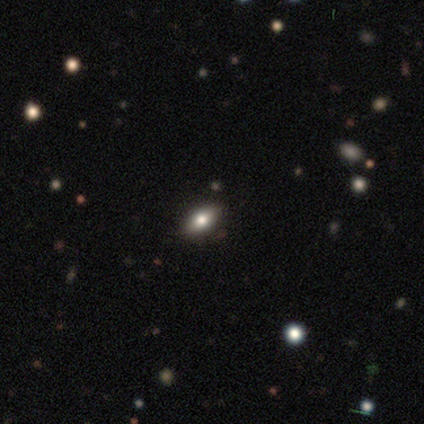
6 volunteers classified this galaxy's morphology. Smooth or featured: smooth — 67% (featured or disk — 17%)
How rounded: in between — 75% (cigar-shaped — 25%)
Merging: none — 100%